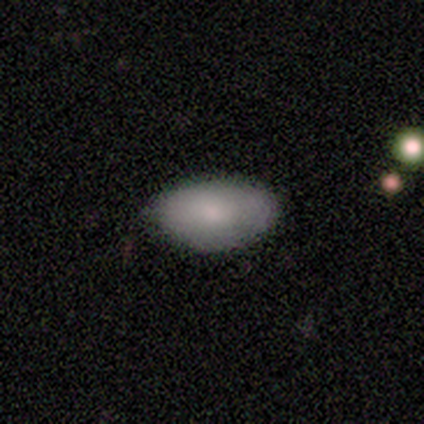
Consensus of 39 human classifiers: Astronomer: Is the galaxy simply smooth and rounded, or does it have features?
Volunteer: smooth — 87%.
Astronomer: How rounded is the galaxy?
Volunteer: in between — 100%.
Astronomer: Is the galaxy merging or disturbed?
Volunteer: none — 62%.